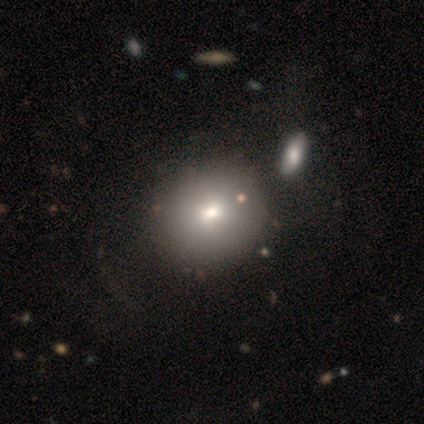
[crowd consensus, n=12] A smooth galaxy with no disk features (83%) that is round (90%).

Vote fractions:
- Smooth or featured? smooth: 83% / star or artifact: 17% / featured or disk: 0%
- How rounded? round: 90% / in between: 10% / cigar-shaped: 0%
- Merging? none: 90% / merger: 10% / minor disturbance: 0% / major disturbance: 0%